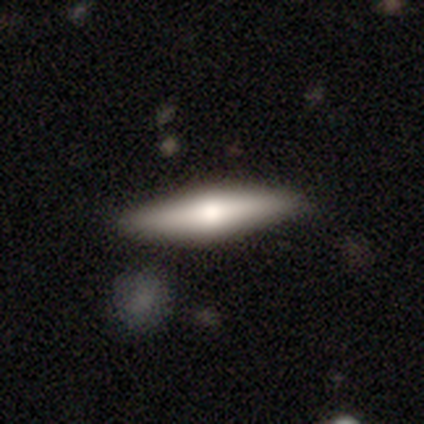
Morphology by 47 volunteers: type=smooth (60%); roundness=cigar-shaped (82%); merging=none (82%).